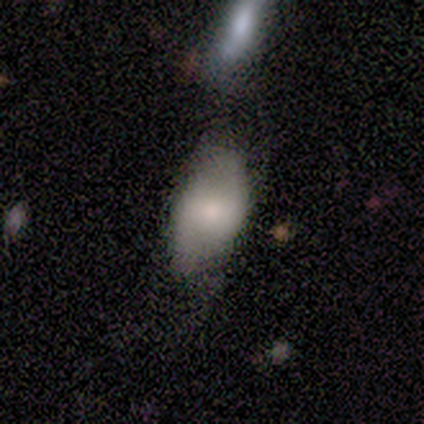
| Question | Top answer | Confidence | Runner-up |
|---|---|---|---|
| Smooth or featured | smooth | 56% | featured or disk (33%) |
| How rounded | in between | 100% | — |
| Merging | minor disturbance | 38% | none (25%) |